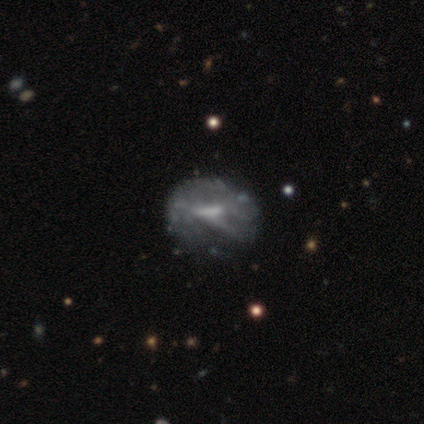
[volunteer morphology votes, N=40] Smooth or featured: featured or disk — 80% (smooth — 12%)
Edge-on disk: no — 94% (yes — 6%)
Bar: weak — 43% (no — 37%)
Spiral arms: no — 83% (yes — 17%)
Bulge size: moderate — 33% (tied with none — 33%)
Merging: none — 32% (major disturbance — 11%)